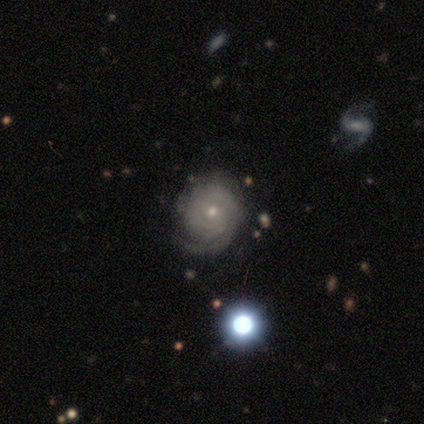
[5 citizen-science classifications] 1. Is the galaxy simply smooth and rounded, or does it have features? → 100% featured or disk, 0% smooth, 0% star or artifact.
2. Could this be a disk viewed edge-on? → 100% no, 0% yes.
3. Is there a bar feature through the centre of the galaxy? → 60% no, 40% weak, 0% strong.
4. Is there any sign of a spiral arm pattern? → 100% yes, 0% no.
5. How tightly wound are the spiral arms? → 100% tight, 0% medium, 0% loose.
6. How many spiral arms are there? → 40% more than 4 (tied), 40% can't tell (tied), 20% 3, 0% 1, 0% 2, 0% 4.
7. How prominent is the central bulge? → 80% small, 20% moderate, 0% dominant, 0% large, 0% none.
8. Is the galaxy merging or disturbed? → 40% none (tied), 40% major disturbance (tied), 20% minor disturbance, 0% merger.